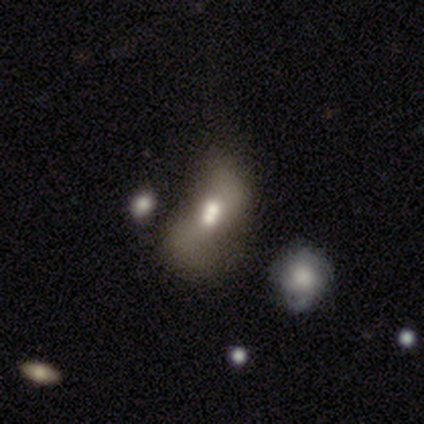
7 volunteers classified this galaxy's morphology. A featured or disk galaxy (57%) with no bar (100%), 2 (100%) loose (67%) spiral arms (75%) and a large central bulge (50%). Merging: merger (57%).